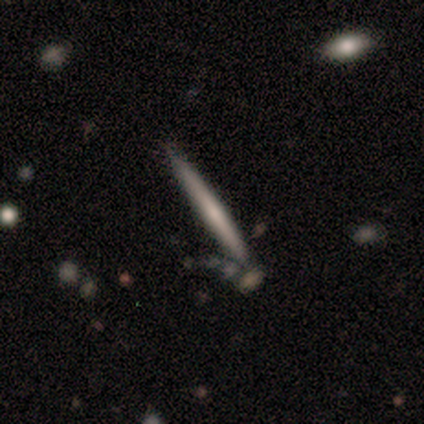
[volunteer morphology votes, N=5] smooth-or-featured: smooth: 40% (tied) | featured or disk: 40% (tied) | star or artifact: 20%
  how-rounded: cigar-shaped: 100% | round: 0% | in between: 0%
  merging: none: 100% | minor disturbance: 0% | major disturbance: 0% | merger: 0%